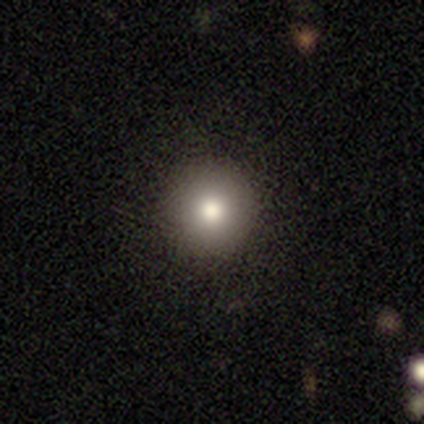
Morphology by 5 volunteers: smooth_or_featured: smooth (p=1.00)
how_rounded: round (p=1.00)
merging: none (p=1.00)